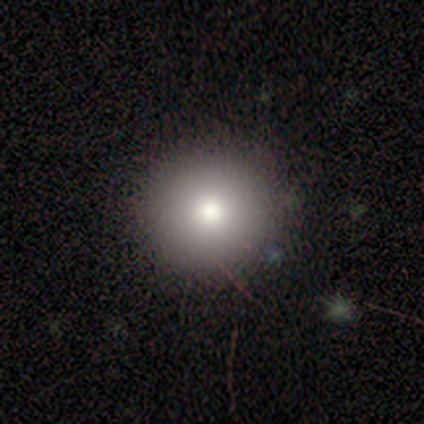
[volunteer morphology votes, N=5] Q: Smooth or featured?
A: smooth (60%); runner-up: star or artifact (40%)
Q: How rounded?
A: round (100%)
Q: Merging?
A: none (100%)